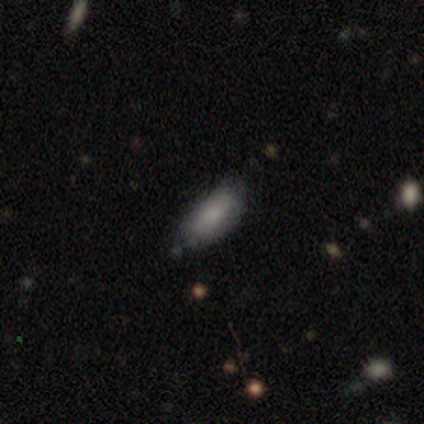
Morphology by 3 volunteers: A smooth galaxy with no disk features (100%) that is in between round and cigar-shaped (67%).

Vote fractions:
- Smooth or featured? smooth: 100% / featured or disk: 0% / star or artifact: 0%
- How rounded? in between: 67% / cigar-shaped: 33% / round: 0%
- Merging? none: 100% / minor disturbance: 0% / major disturbance: 0% / merger: 0%